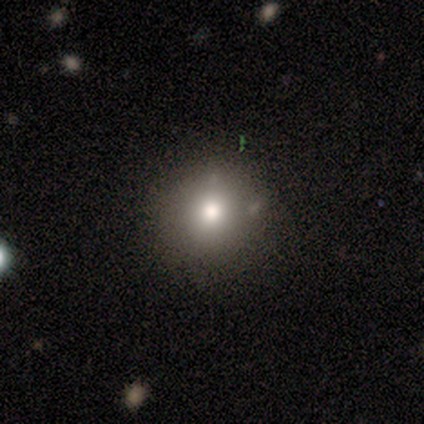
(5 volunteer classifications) smooth 80%, star or artifact 20%, featured or disk 0%. Down the decision tree: how rounded — round (100%); merging — none (100%).